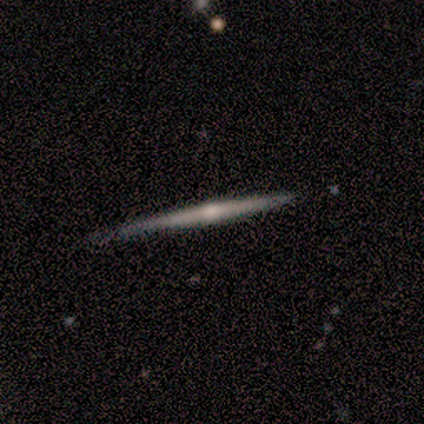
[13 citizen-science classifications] smooth_or_featured: featured or disk (p=0.77) [alt: smooth p=0.15]
disk_edge_on: yes (p=1.00)
edge_on_bulge: rounded (p=0.90) [alt: none p=0.10]
merging: none (p=0.92) [alt: minor disturbance p=0.08]